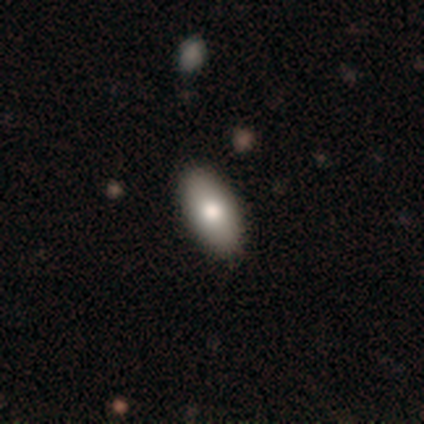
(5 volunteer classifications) A smooth galaxy with no disk features (80%) that is in between round and cigar-shaped (100%). Merging: minor disturbance (60%).